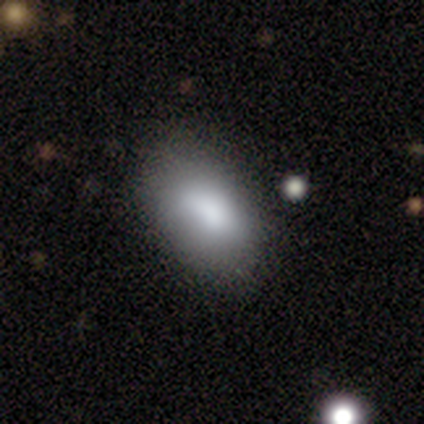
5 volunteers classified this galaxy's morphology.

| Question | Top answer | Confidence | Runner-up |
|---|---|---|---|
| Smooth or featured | smooth | 80% | featured or disk (20%) |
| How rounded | in between | 75% | round (25%) |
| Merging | none | 100% | — |